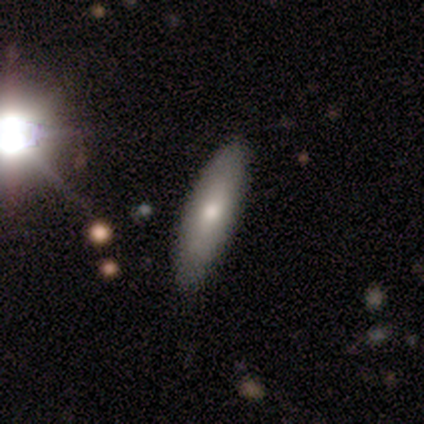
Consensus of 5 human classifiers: Smooth or featured: smooth — 80% (featured or disk — 20%)
How rounded: cigar-shaped — 75% (in between — 25%)
Merging: none — 80% (minor disturbance — 20%)